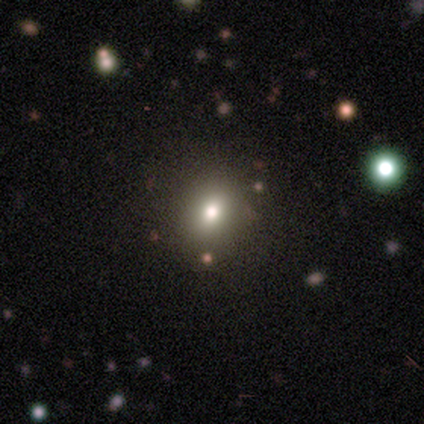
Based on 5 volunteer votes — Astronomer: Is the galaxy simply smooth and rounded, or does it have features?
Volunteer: smooth — 80%.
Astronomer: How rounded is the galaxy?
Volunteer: in between — 75%.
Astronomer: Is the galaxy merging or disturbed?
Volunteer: none — 100%.